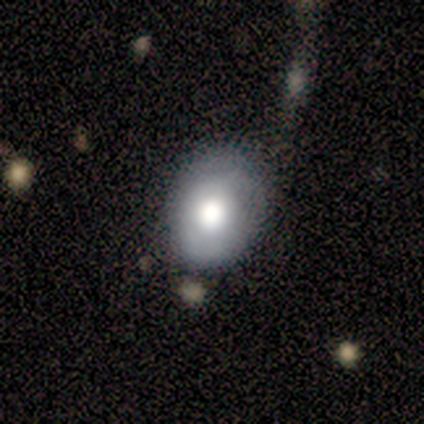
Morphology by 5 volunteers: Overall: smooth (40%, tied with featured or disk). How rounded: round (50%, tied with in between). Merging: none (100%).